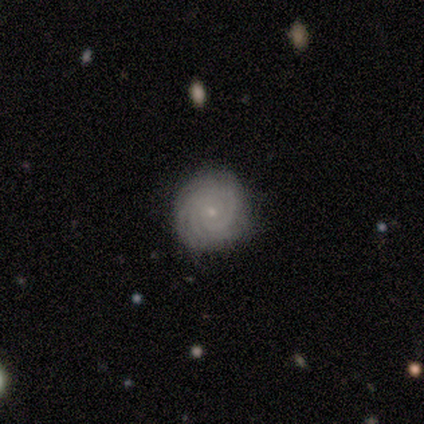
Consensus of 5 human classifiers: Smooth or featured? 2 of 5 (40%, tied with featured or disk) said smooth. How rounded? 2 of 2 (100%) said round. Merging? 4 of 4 (100%) said none.